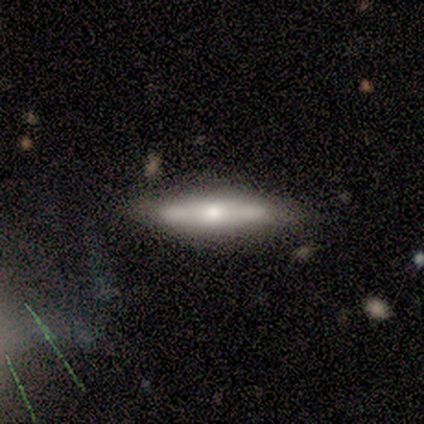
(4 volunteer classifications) smooth_or_featured: smooth (p=0.75) [alt: featured or disk p=0.25]
how_rounded: cigar-shaped (p=1.00)
merging: none (p=0.50) [alt: minor disturbance p=0.25]